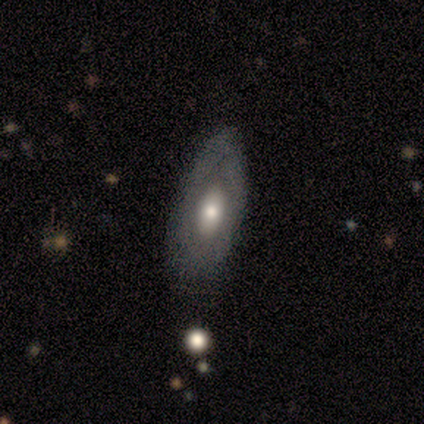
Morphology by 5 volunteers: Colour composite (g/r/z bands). It shows a smooth galaxy with no disk features (60%) that is in between round and cigar-shaped (67%). Merging: none (60%).